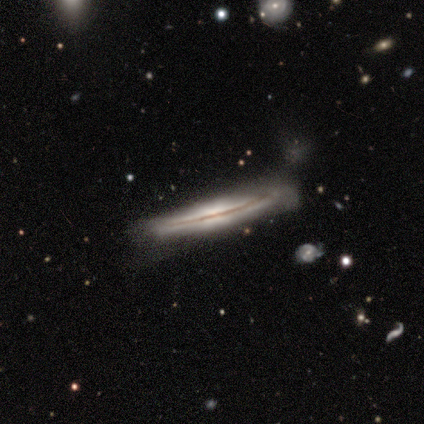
Overall: featured or disk (75%). Edge-on disk: yes (100%). Edge-on bulge: rounded (100%). Merging: none (50%, tied with minor disturbance).